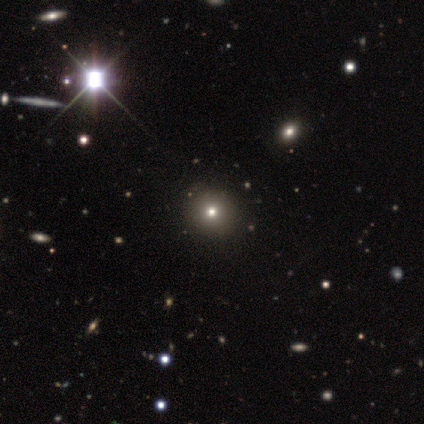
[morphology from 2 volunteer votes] Smooth or featured? smooth (100%)
How rounded? round (100%)
Merging? none (100%)